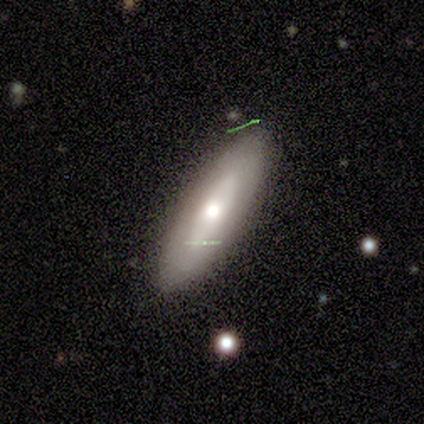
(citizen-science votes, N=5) smooth_or_featured: smooth (p=1.00)
how_rounded: cigar-shaped (p=0.80) [alt: in between p=0.20]
merging: none (p=1.00)